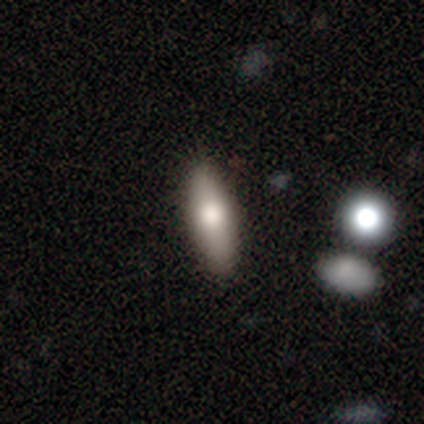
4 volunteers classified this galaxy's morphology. Q: Smooth or featured?
A: smooth (75%); runner-up: featured or disk (25%)
Q: How rounded?
A: in between (67%); runner-up: cigar-shaped (33%)
Q: Merging?
A: none (75%); runner-up: minor disturbance (25%)